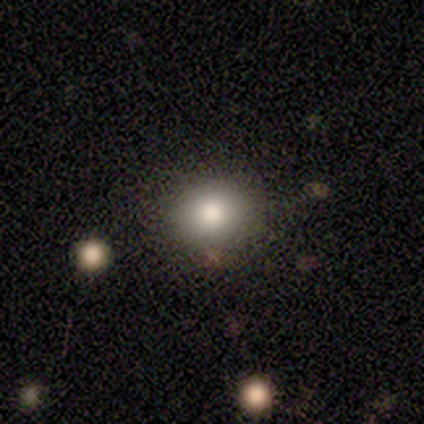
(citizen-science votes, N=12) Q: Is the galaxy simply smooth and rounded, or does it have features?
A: smooth — 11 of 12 (92%).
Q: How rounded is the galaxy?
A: round — 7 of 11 (64%).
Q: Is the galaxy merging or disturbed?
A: none — 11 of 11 (100%).